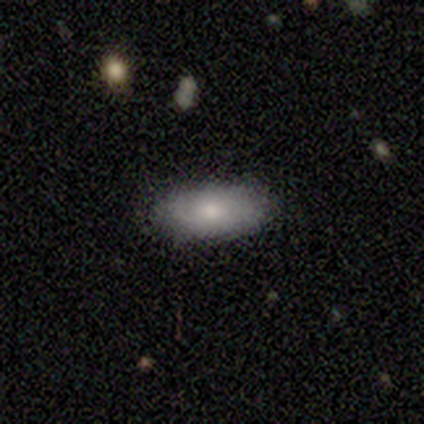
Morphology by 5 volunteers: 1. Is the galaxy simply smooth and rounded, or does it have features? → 80% smooth, 20% featured or disk, 0% star or artifact.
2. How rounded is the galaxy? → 100% in between, 0% round, 0% cigar-shaped.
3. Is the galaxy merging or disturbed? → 100% none, 0% minor disturbance, 0% major disturbance, 0% merger.